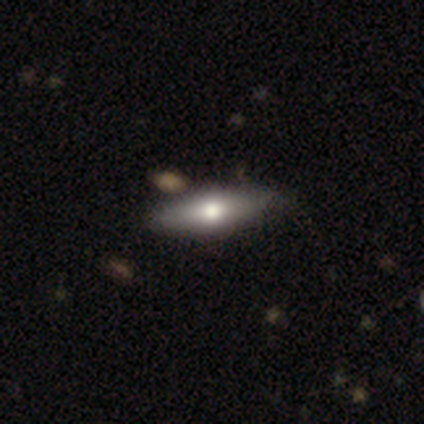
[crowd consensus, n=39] Smooth or featured? smooth (64%)
How rounded? in between (52%)
Merging? none (89%)